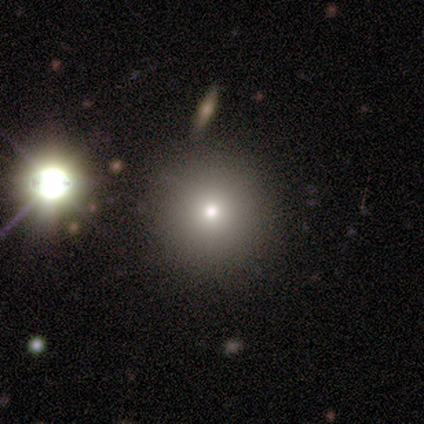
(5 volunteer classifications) This appears to be a smooth galaxy with no disk features (100%) that is round (100%). Merging: none (40%, tied with minor disturbance).